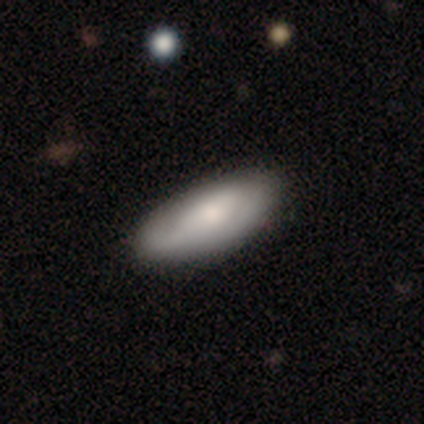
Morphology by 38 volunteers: Smooth or featured?
  - smooth: 63% *
  - featured or disk: 37%
  - star or artifact: 0%
How rounded?
  - in between: 75% *
  - cigar-shaped: 21%
  - round: 4%
Merging?
  - none: 68% *
  - minor disturbance: 29%
  - major disturbance: 3%
  - merger: 0%